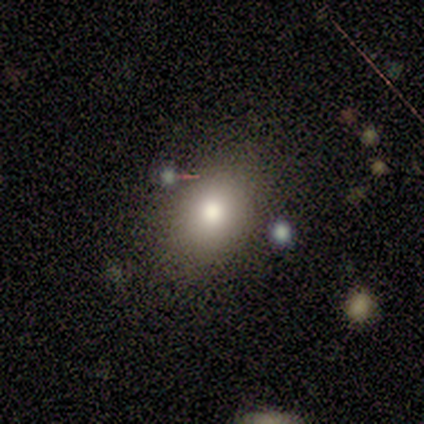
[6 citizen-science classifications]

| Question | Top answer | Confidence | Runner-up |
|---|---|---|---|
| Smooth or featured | smooth | 100% | — |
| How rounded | in between | 100% | — |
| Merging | none | 100% | — |